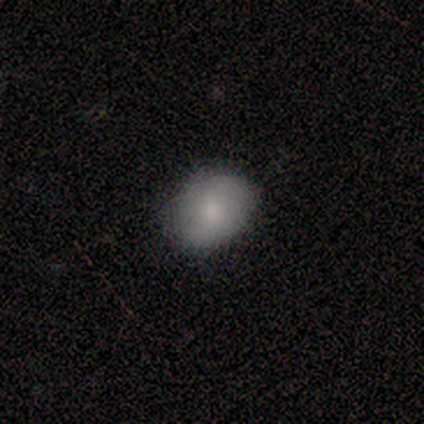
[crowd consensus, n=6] A smooth galaxy with no disk features (67%) that is in between round and cigar-shaped (75%).

Vote fractions:
- Smooth or featured? smooth: 67% / featured or disk: 33% / star or artifact: 0%
- How rounded? in between: 75% / round: 25% / cigar-shaped: 0%
- Merging? none: 100% / minor disturbance: 0% / major disturbance: 0% / merger: 0%